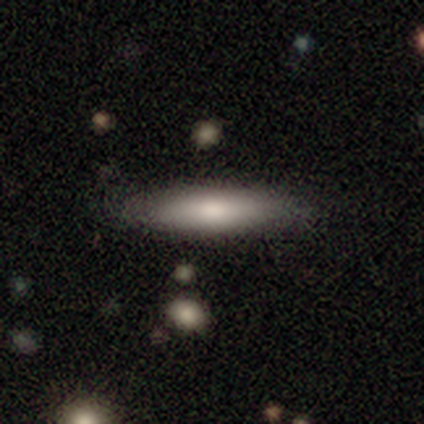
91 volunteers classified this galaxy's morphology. smooth-or-featured: smooth: 75% | featured or disk: 19% | star or artifact: 7%
  how-rounded: cigar-shaped: 84% | in between: 15% | round: 1%
  merging: none: 80% | minor disturbance: 16% | major disturbance: 4% | merger: 0%